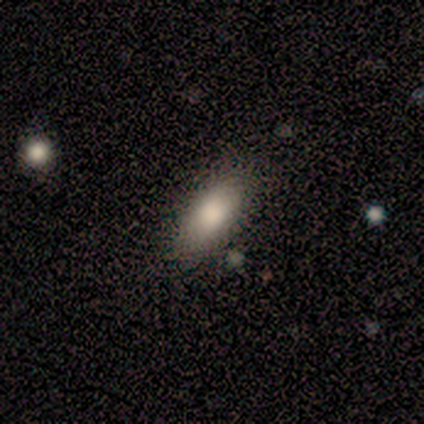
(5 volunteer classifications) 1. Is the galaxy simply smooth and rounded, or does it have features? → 100% smooth, 0% featured or disk, 0% star or artifact.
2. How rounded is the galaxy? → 80% in between, 20% cigar-shaped, 0% round.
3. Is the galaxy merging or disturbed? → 80% none, 20% minor disturbance, 0% major disturbance, 0% merger.